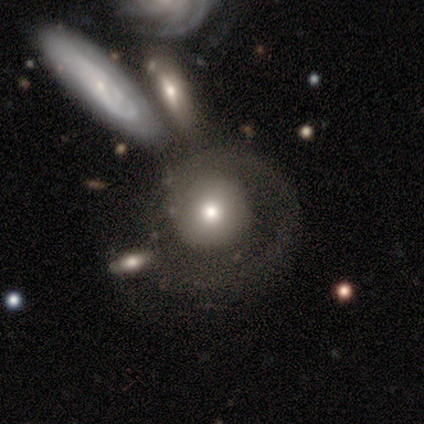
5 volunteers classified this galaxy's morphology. A featured or disk galaxy (60%) with no bar (67%), no spiral arms (67%) and a small central bulge (67%).

Vote fractions:
- Smooth or featured? featured or disk: 60% / smooth: 40% / star or artifact: 0%
- Edge-on disk? no: 100% / yes: 0%
- Bar? no: 67% / weak: 33% / strong: 0%
- Spiral arms? no: 67% / yes: 33%
- Bulge size? small: 67% / moderate: 33% / dominant: 0% / large: 0% / none: 0%
- Merging? merger: 40% / none: 20% / minor disturbance: 20% / major disturbance: 20%